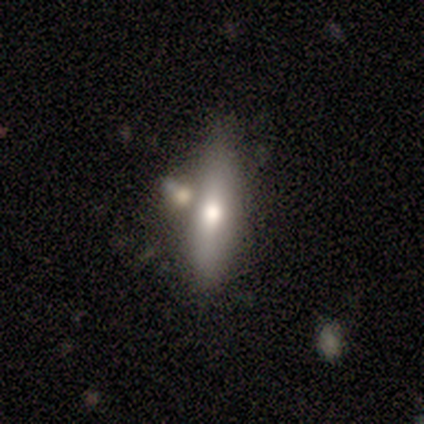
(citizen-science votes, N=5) Overall: smooth (80%). How rounded: cigar-shaped (75%). Merging: none (40%; minor disturbance 20%).